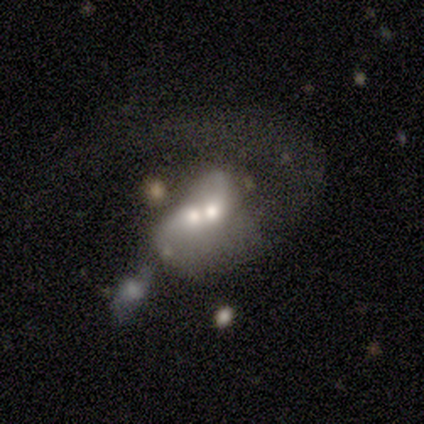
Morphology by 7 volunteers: This is clearly a featured or disk galaxy (86%). It is clearly not viewed edge-on (100%). Bar: clearly no (83%). Spiral arm pattern: possibly yes (50%, tied with no). Spiral arm count: marginally 1 (33%, tied with 2 and can't tell). Spiral winding: clearly loose (100%). Central bulge: clearly moderate (83%). Merging: marginally major disturbance (43%, tied with merger).